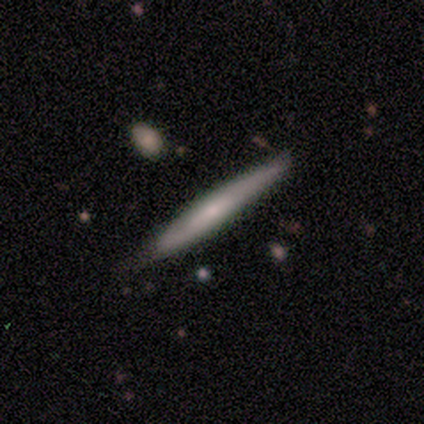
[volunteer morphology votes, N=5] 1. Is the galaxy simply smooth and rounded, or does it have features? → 60% smooth, 40% featured or disk, 0% star or artifact.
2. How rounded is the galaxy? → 100% cigar-shaped, 0% round, 0% in between.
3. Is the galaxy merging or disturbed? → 60% minor disturbance, 40% none, 0% major disturbance, 0% merger.